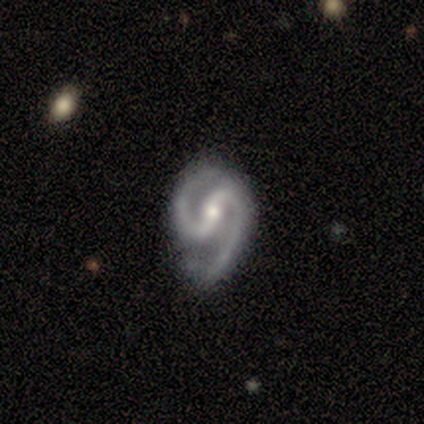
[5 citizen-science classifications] Smooth or featured? 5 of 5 (100%) said featured or disk. Edge-on disk? 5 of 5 (100%) said no. Bar? 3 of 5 (60%) said strong. Spiral arms? 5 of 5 (100%) said yes. Spiral winding? 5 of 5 (100%) said medium. Spiral arm count? 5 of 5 (100%) said 2. Bulge size? 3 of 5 (60%) said small. Merging? 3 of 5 (60%) said none.